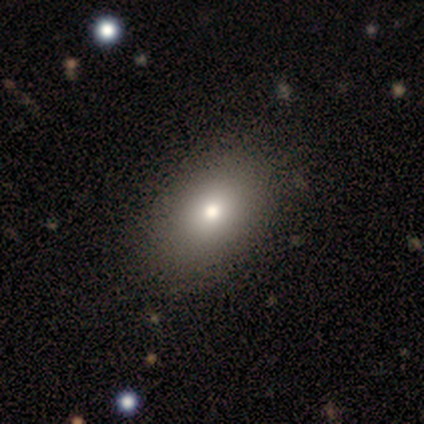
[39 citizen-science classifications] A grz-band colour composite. It shows a smooth galaxy with no disk features (69%) that is in between round and cigar-shaped (89%). Merging: none (56%).